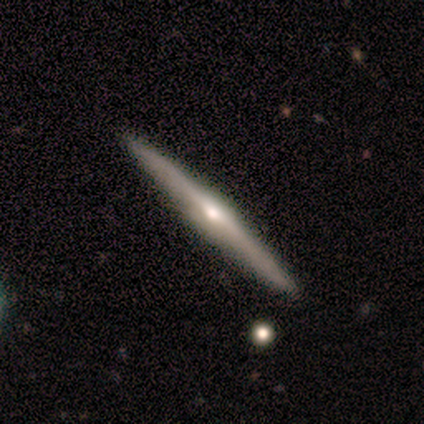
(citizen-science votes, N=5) Morphology: type=featured or disk (80%); edge-on=yes (100%); edge-on bulge=rounded (75%); merging=none (60%).